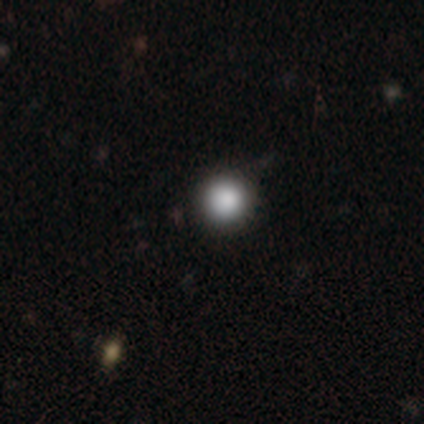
smooth-or-featured: smooth: 75% | star or artifact: 25% | featured or disk: 0%
  how-rounded: round: 100% | in between: 0% | cigar-shaped: 0%
  merging: none: 100% | minor disturbance: 0% | major disturbance: 0% | merger: 0%